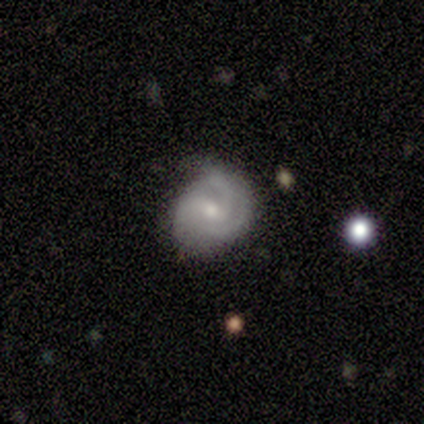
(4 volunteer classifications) smooth-or-featured: featured or disk: 75% | smooth: 25% | star or artifact: 0%
  disk-edge-on: no: 100% | yes: 0%
    bar: no: 67% | weak: 33% | strong: 0%
    has-spiral-arms: yes: 100% | no: 0%
      spiral-winding: tight: 67% | medium: 33% | loose: 0%
      spiral-arm-count: 3: 67% | can't tell: 33% | 1: 0% | 2: 0% | 4: 0% | more than 4: 0%
    bulge-size: small: 67% | moderate: 33% | dominant: 0% | large: 0% | none: 0%
  merging: none: 75% | minor disturbance: 25% | major disturbance: 0% | merger: 0%